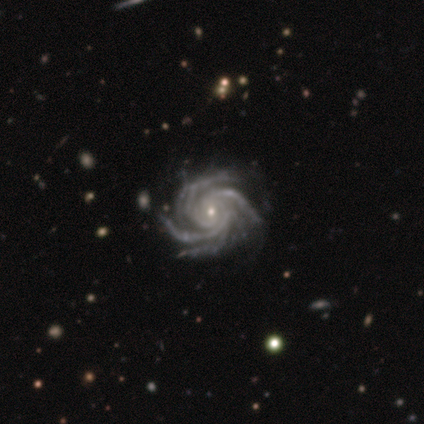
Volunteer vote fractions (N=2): Overall: featured or disk (100%). Edge-on disk: no (100%). Bar: strong (50%, tied with no). Spiral arms: yes (100%). Spiral arm count: more than 4 (100%). Spiral winding: tight (100%). Bulge size: moderate (50%, tied with small). Merging: none (100%).